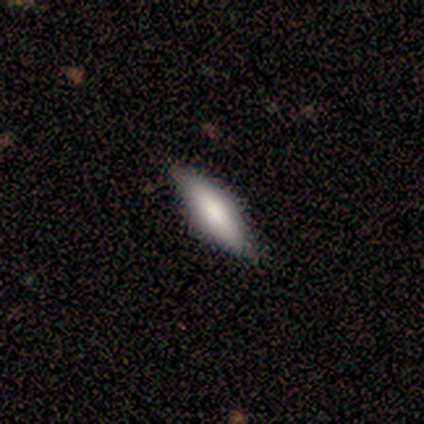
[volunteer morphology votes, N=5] Overall: smooth (80%). How rounded: in between (50%, tied with cigar-shaped). Merging: none (100%).